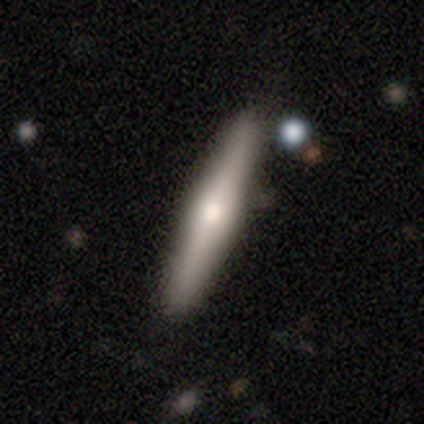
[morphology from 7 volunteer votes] smooth_or_featured: featured or disk (p=0.57) [alt: smooth p=0.43]
disk_edge_on: yes (p=1.00)
edge_on_bulge: rounded (p=0.75) [alt: boxy p=0.25]
merging: none (p=0.86) [alt: minor disturbance p=0.14]